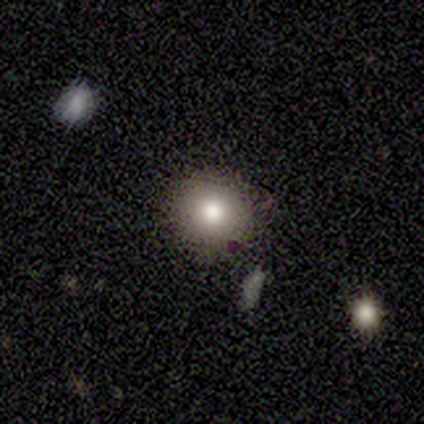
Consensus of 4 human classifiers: Smooth or featured? 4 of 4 (100%) said smooth. How rounded? 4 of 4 (100%) said round. Merging? 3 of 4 (75%) said none.